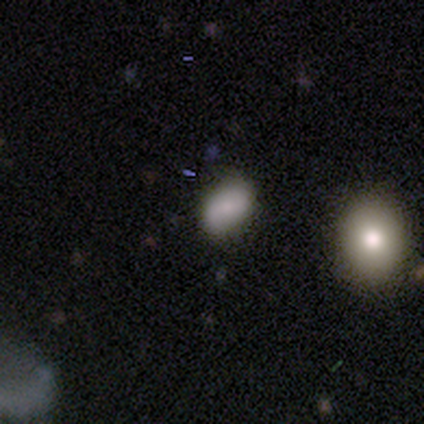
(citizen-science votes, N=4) Morphology: type=smooth (75%); roundness=in between (67%); merging=none (75%).